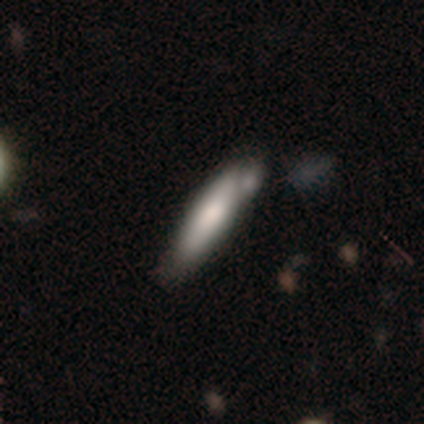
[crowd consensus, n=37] Morphology: type=smooth (70%); roundness=cigar-shaped (85%); merging=none (46%).